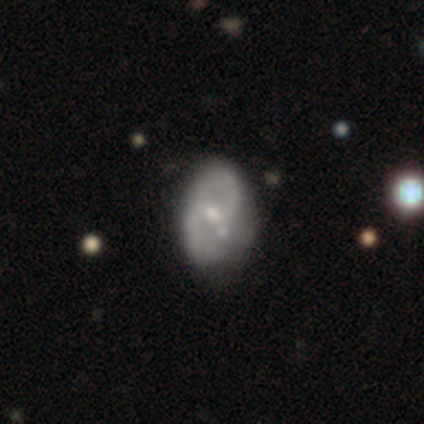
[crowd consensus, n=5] smooth_or_featured: featured or disk (p=0.80) [alt: smooth p=0.20]
disk_edge_on: no (p=1.00)
bar: no (p=0.50) [alt: strong p=0.25]
has_spiral_arms: yes (p=0.75) [alt: no p=0.25]
spiral_winding: medium (p=0.67) [alt: loose p=0.33]
spiral_arm_count: 2 (p=1.00)
bulge_size: large (p=0.50) [alt: moderate p=0.25]
merging: none (p=0.40) [alt: minor disturbance p=0.20]